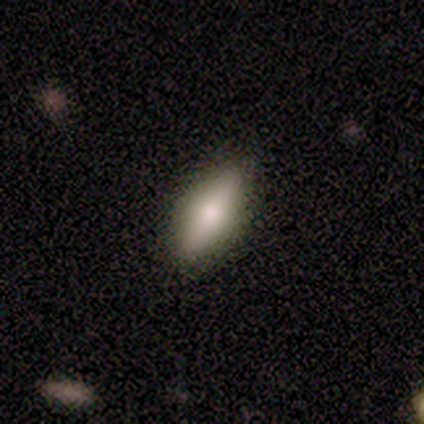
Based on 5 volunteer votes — featured or disk 80%, smooth 20%, star or artifact 0%. Down the decision tree: edge-on disk — yes (75%); edge-on bulge — rounded (67%); merging — none (100%).